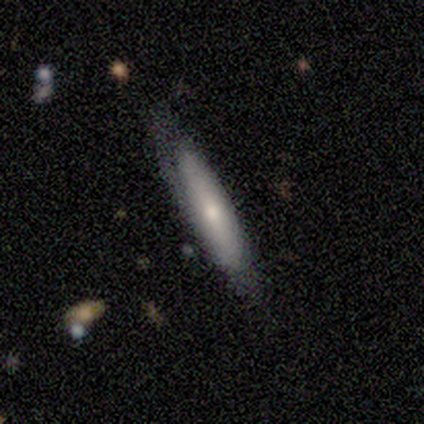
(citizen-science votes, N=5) Volunteers were most divided on "smooth or featured": smooth: 60%, featured or disk: 40%, star or artifact: 0%. More confident: how rounded — in between (100%); merging — none (60%).